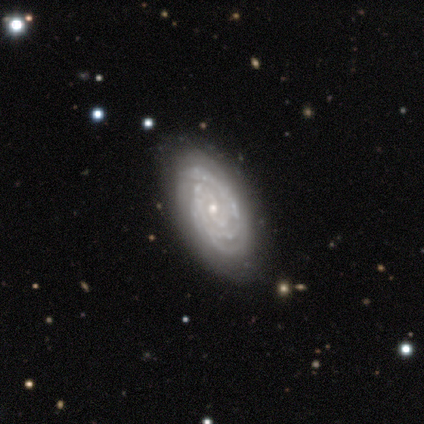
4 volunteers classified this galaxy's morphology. Smooth or featured?
  - featured or disk: 100% *
  - smooth: 0%
  - star or artifact: 0%
Edge-on disk?
  - no: 100% *
  - yes: 0%
Bar?
  - no: 75% *
  - weak: 25%
  - strong: 0%
Spiral arms?
  - yes: 100% *
  - no: 0%
Spiral winding?
  - tight: 100% *
  - medium: 0%
  - loose: 0%
Spiral arm count?
  - 3: 50% * (tied)
  - can't tell: 50% * (tied)
  - 1: 0%
  - 2: 0%
  - 4: 0%
  - more than 4: 0%
Bulge size?
  - moderate: 50% * (tied)
  - small: 50% * (tied)
  - dominant: 0%
  - large: 0%
  - none: 0%
Merging?
  - none: 100% *
  - minor disturbance: 0%
  - major disturbance: 0%
  - merger: 0%